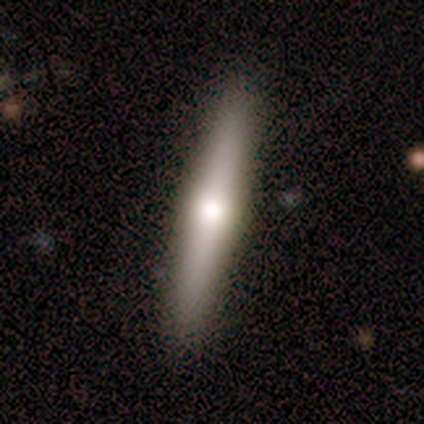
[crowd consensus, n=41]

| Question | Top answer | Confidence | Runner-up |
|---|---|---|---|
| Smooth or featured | featured or disk | 51% | smooth (41%) |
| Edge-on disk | yes | 100% | — |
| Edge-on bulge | rounded | 90% | boxy (5%) |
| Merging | none | 95% | minor disturbance (5%) |